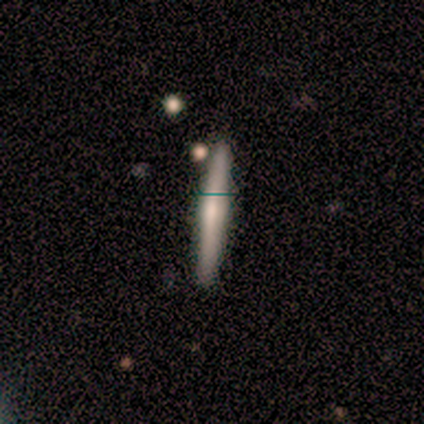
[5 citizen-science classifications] Volunteers were most divided on "smooth or featured" (2-way tie): smooth: 40%, featured or disk: 40%, star or artifact: 20%. More confident: how rounded — cigar-shaped (100%); merging — none (100%).